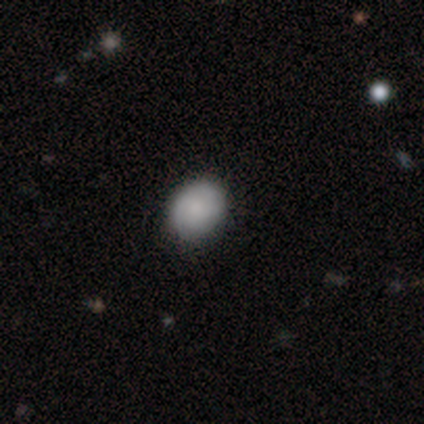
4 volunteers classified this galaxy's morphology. smooth 50% (tied), featured or disk 50% (tied), star or artifact 0%. Down the decision tree: how rounded — in between (100%); merging — none (100%).